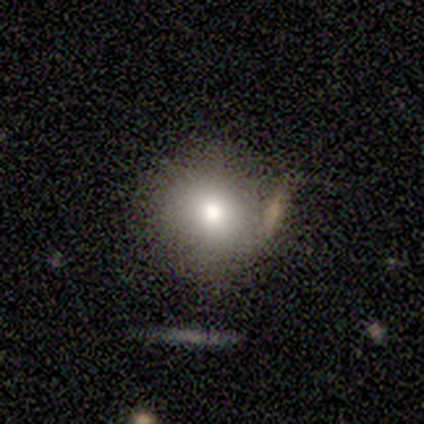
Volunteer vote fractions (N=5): smooth-or-featured: smooth: 60% | featured or disk: 20% | star or artifact: 20%
  how-rounded: round: 100% | in between: 0% | cigar-shaped: 0%
  merging: none: 50% (tied) | minor disturbance: 50% (tied) | major disturbance: 0% | merger: 0%